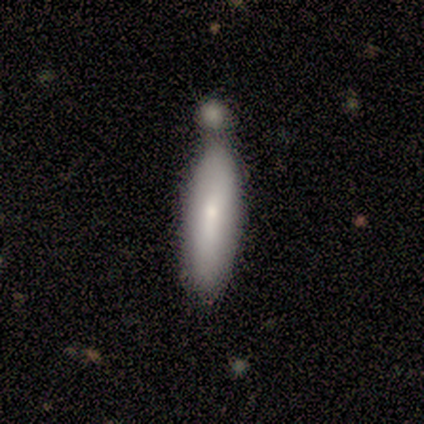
Morphology: type=smooth (86%); roundness=cigar-shaped (67%); merging=none (43%).